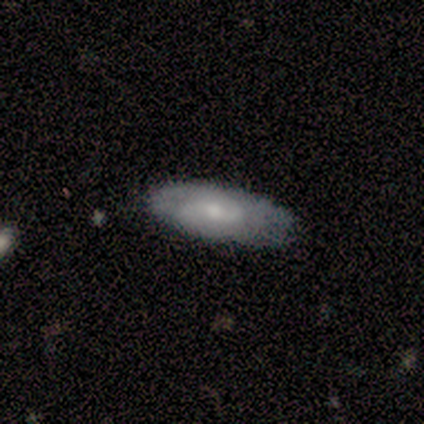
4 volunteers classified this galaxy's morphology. Q: Smooth or featured?
A: smooth (75%); runner-up: featured or disk (25%)
Q: How rounded?
A: in between (67%); runner-up: cigar-shaped (33%)
Q: Merging?
A: none (100%)